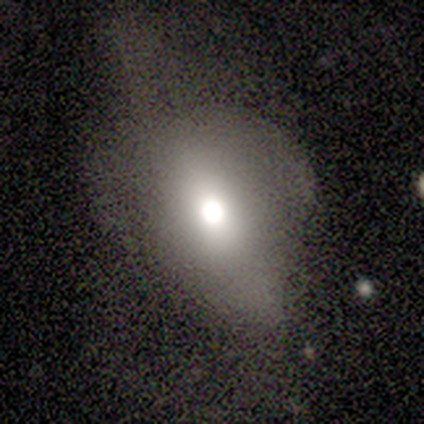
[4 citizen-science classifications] smooth-or-featured: smooth: 75% | star or artifact: 25% | featured or disk: 0%
  how-rounded: in between: 67% | round: 33% | cigar-shaped: 0%
  merging: none: 67% | major disturbance: 33% | minor disturbance: 0% | merger: 0%